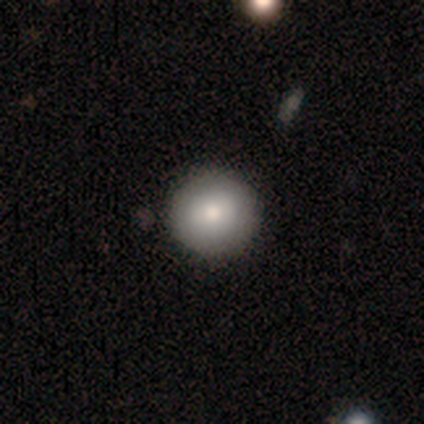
Smooth or featured? 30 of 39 (77%) said smooth. How rounded? 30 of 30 (100%) said round. Merging? 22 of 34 (65%) said none.